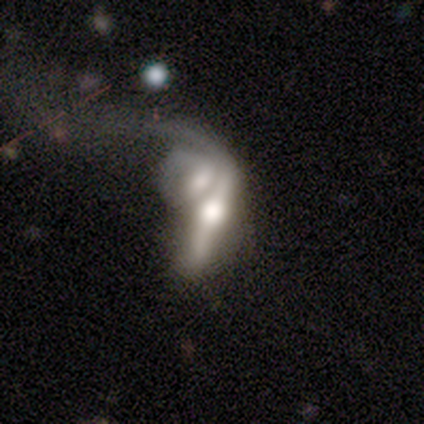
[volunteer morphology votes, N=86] smooth-or-featured: featured or disk: 74% | smooth: 17% | star or artifact: 8%
  disk-edge-on: yes: 59% | no: 41%
    edge-on-bulge: rounded: 89% | boxy: 11% | none: 0%
  merging: merger: 76% | major disturbance: 13% | minor disturbance: 6% | none: 5%